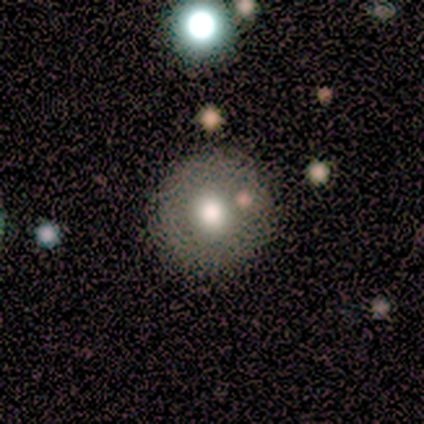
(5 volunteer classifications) This appears to be a smooth galaxy with no disk features (80%) that is round (100%). Merging: none (100%).